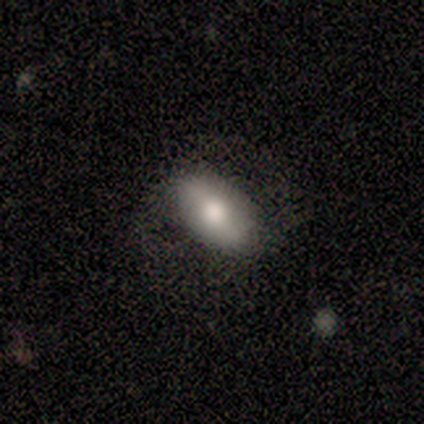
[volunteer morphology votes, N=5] A smooth galaxy with no disk features (60%) that is in between round and cigar-shaped (100%).

Vote fractions:
- Smooth or featured? smooth: 60% / featured or disk: 40% / star or artifact: 0%
- How rounded? in between: 100% / round: 0% / cigar-shaped: 0%
- Merging? none: 60% / minor disturbance: 20% / major disturbance: 20% / merger: 0%